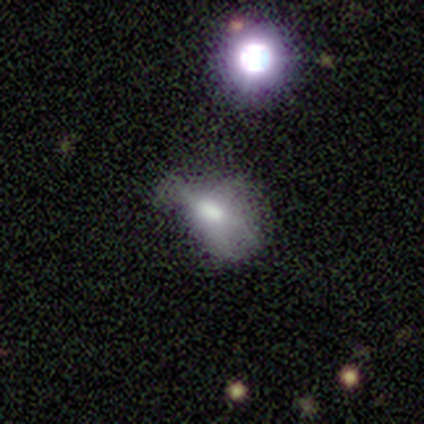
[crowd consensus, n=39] Smooth or featured? 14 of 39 (36%) said star or artifact.